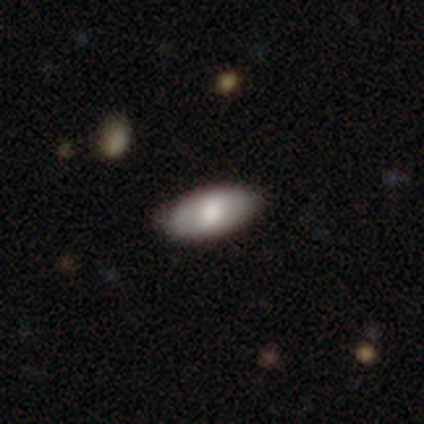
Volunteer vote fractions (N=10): smooth-or-featured: smooth: 80% | featured or disk: 20% | star or artifact: 0%
  how-rounded: in between: 75% | round: 12% | cigar-shaped: 12%
  merging: none: 100% | minor disturbance: 0% | major disturbance: 0% | merger: 0%